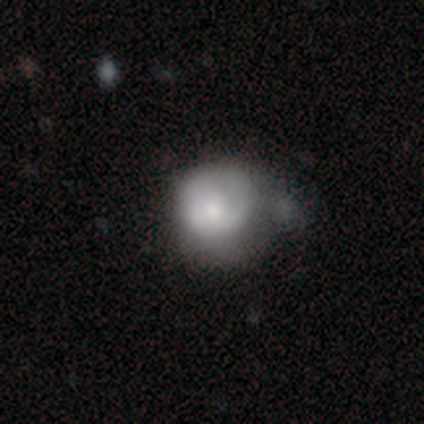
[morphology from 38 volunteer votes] This appears to be a smooth galaxy with no disk features (53%) that is round (75%). Merging: minor disturbance (31%).